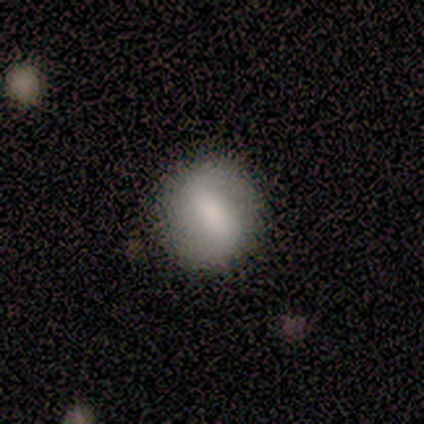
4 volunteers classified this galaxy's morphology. Smooth or featured?
  - smooth: 75% *
  - featured or disk: 25%
  - star or artifact: 0%
How rounded?
  - round: 67% *
  - in between: 33%
  - cigar-shaped: 0%
Merging?
  - none: 75% *
  - minor disturbance: 25%
  - major disturbance: 0%
  - merger: 0%